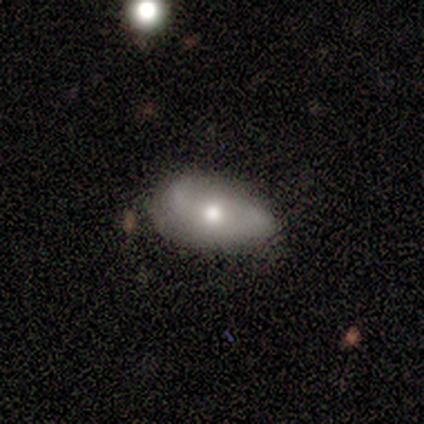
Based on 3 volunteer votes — A featured or disk galaxy (100%) with a strong bar (33%, tied with weak and no), 2 (100%) medium (50%, tied with loose) spiral arms (67%) and a moderate central bulge (100%). Merging: none (67%).